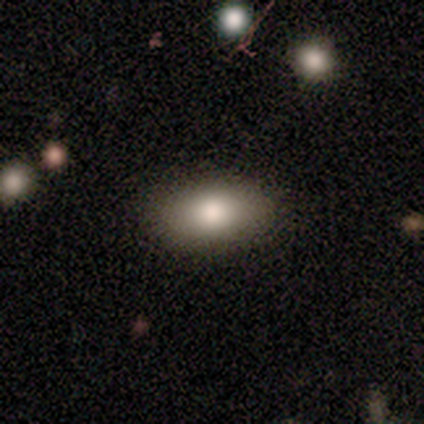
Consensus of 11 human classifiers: Smooth or featured?
  - smooth: 73% *
  - featured or disk: 18%
  - star or artifact: 9%
How rounded?
  - in between: 100% *
  - round: 0%
  - cigar-shaped: 0%
Merging?
  - none: 100% *
  - minor disturbance: 0%
  - major disturbance: 0%
  - merger: 0%